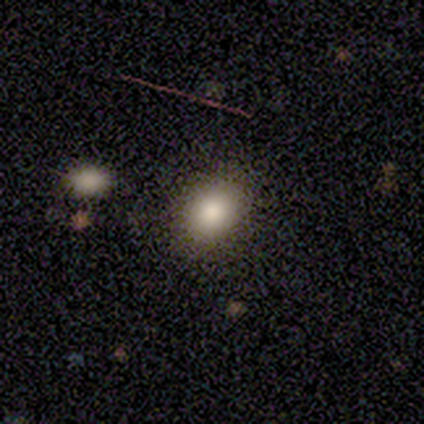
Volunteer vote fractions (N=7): This is clearly a smooth galaxy (100%). How rounded: possibly round (57%). Merging: clearly none (100%).